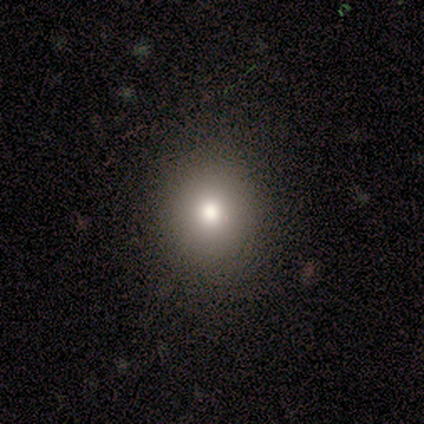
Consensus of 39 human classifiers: This is clearly a smooth galaxy (87%). How rounded: likely round (76%). Merging: clearly none (81%).